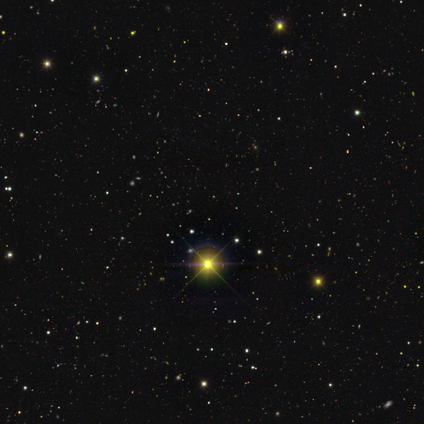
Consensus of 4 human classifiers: smooth_or_featured: star or artifact (p=1.00)